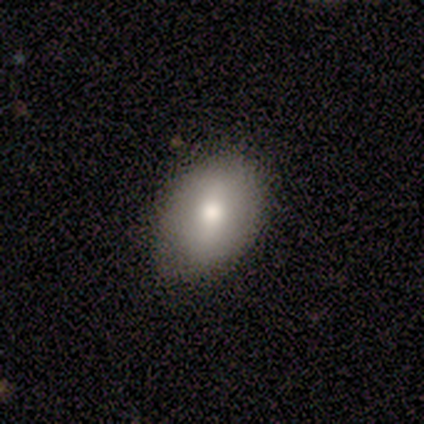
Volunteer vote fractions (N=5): Smooth or featured?
  - smooth: 80% *
  - featured or disk: 20%
  - star or artifact: 0%
How rounded?
  - in between: 75% *
  - round: 25%
  - cigar-shaped: 0%
Merging?
  - none: 100% *
  - minor disturbance: 0%
  - major disturbance: 0%
  - merger: 0%